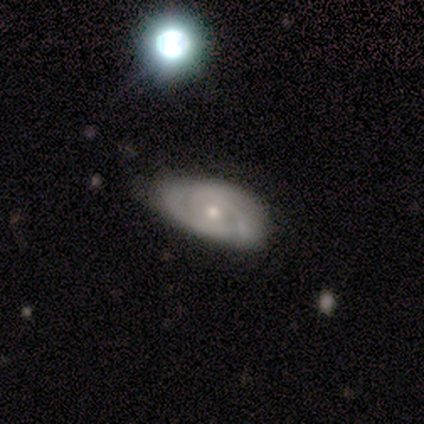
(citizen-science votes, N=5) smooth_or_featured: featured or disk (p=0.80) [alt: smooth p=0.20]
disk_edge_on: no (p=1.00)
bar: no (p=1.00)
has_spiral_arms: yes (p=1.00)
spiral_winding: tight (p=0.75) [alt: medium p=0.25]
spiral_arm_count: 2 (p=0.50) [tied with: 3 p=0.50]
bulge_size: moderate (p=0.50) [tied with: small p=0.50]
merging: none (p=0.60) [alt: minor disturbance p=0.20]